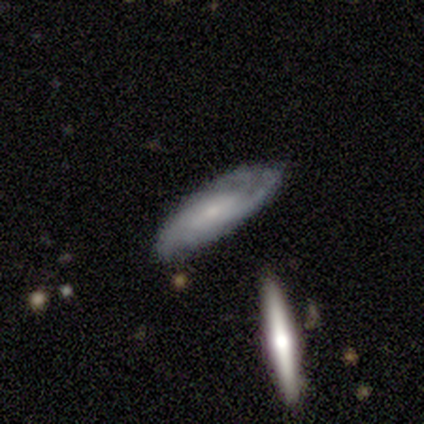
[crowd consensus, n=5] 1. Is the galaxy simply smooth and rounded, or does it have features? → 100% featured or disk, 0% smooth, 0% star or artifact.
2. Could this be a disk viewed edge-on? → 100% no, 0% yes.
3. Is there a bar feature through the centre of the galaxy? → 60% weak, 20% strong, 20% no.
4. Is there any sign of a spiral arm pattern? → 100% yes, 0% no.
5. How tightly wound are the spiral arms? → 80% tight, 20% medium, 0% loose.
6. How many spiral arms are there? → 40% can't tell, 20% 2, 20% 3, 20% 4, 0% 1, 0% more than 4.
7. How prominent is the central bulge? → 80% small, 20% dominant, 0% large, 0% moderate, 0% none.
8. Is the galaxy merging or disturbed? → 100% none, 0% minor disturbance, 0% major disturbance, 0% merger.